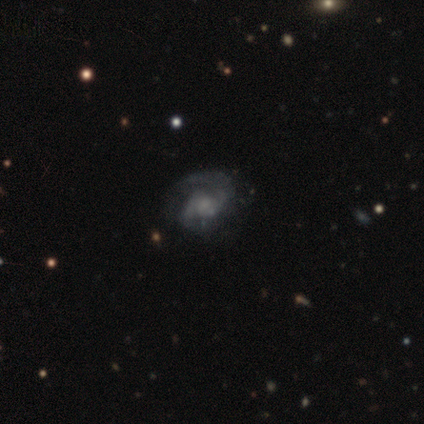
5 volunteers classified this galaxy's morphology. type=featured or disk (80%); edge-on=no (100%); bar=no (75%); spiral arms=yes (100%); winding=tight (75%); arm count=2 (100%); bulge=small (50%); merging=none (60%).